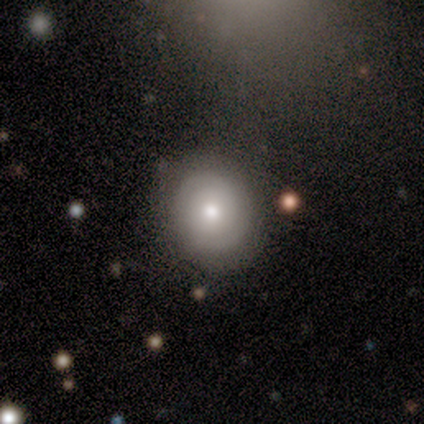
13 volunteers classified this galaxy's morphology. smooth_or_featured: smooth (p=0.54) [alt: featured or disk p=0.31]
how_rounded: round (p=0.71) [alt: in between p=0.29]
merging: none (p=1.00)